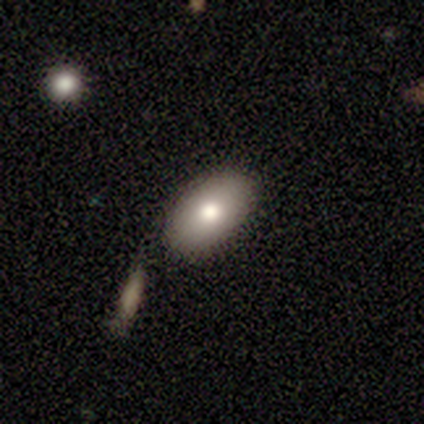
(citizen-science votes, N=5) A smooth galaxy with no disk features (80%) that is in between round and cigar-shaped (100%).

Vote fractions:
- Smooth or featured? smooth: 80% / star or artifact: 20% / featured or disk: 0%
- How rounded? in between: 100% / round: 0% / cigar-shaped: 0%
- Merging? none: 100% / minor disturbance: 0% / major disturbance: 0% / merger: 0%